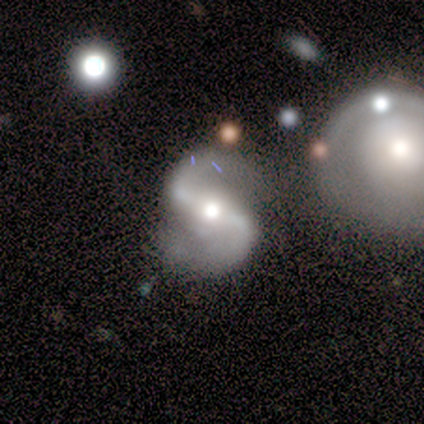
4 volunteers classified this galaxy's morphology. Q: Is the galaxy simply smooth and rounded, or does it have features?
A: featured or disk — 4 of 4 (100%).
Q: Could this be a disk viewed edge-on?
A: no — 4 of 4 (100%).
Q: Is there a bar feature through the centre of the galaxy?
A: strong — 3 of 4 (75%).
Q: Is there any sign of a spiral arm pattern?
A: yes — 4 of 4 (100%).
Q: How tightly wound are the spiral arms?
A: loose — 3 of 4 (75%).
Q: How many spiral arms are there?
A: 2 — 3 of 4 (75%).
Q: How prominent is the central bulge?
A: moderate — 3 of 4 (75%).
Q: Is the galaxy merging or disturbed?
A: none — 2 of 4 (50%).